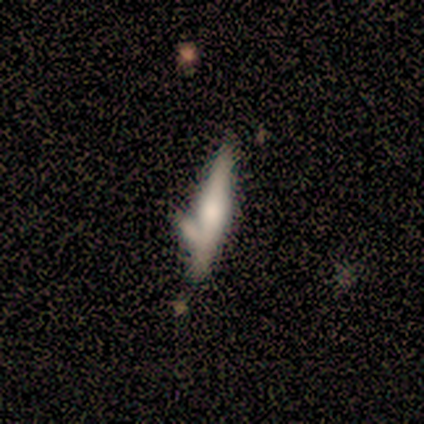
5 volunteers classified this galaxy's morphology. Overall: smooth (40%, tied with featured or disk). How rounded: cigar-shaped (100%). Merging: none (50%, tied with merger).